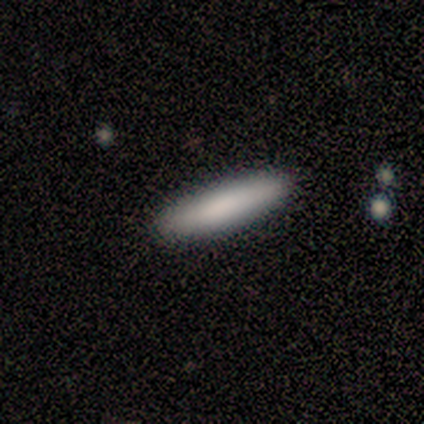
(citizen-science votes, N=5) This is clearly a smooth galaxy (80%). How rounded: clearly cigar-shaped (100%). Merging: likely none (60%).